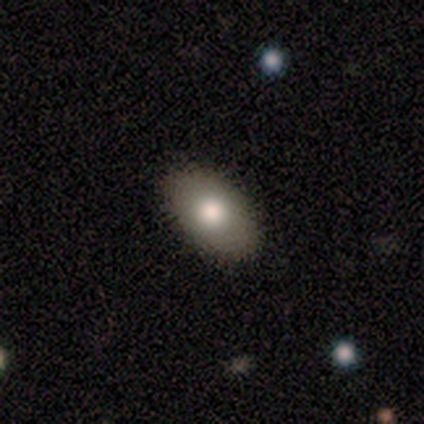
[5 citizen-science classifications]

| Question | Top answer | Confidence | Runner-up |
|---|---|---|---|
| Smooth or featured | smooth | 80% | star or artifact (20%) |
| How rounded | in between | 100% | — |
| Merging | none | 100% | — |